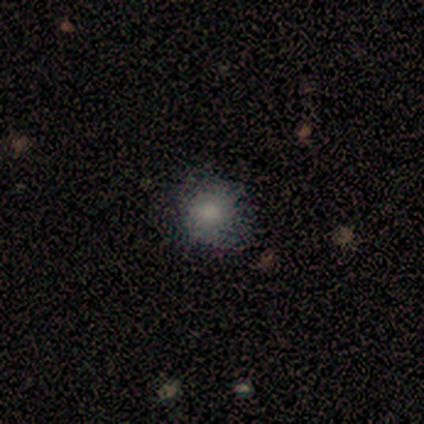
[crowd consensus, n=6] smooth_or_featured: smooth (p=0.83) [alt: star or artifact p=0.17]
how_rounded: round (p=0.60) [alt: in between p=0.40]
merging: none (p=0.80) [alt: minor disturbance p=0.20]